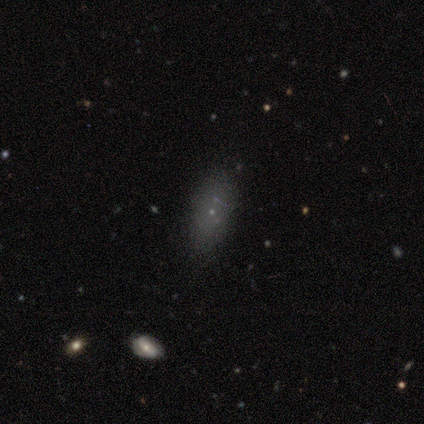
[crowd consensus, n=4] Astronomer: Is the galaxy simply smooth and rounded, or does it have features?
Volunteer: smooth — 50%, tied with star or artifact at 50%.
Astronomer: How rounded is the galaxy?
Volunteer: in between — 100%.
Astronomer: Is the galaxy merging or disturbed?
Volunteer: none — 100%.